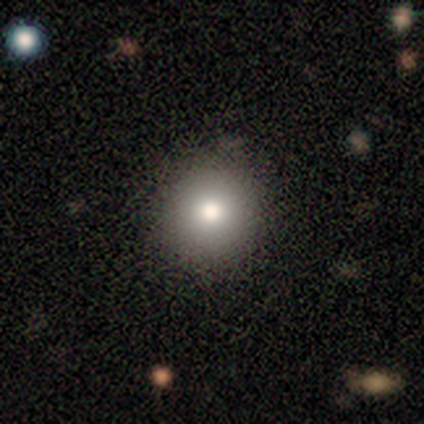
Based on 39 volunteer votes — Q: Smooth or featured?
A: smooth (85%); runner-up: featured or disk (10%)
Q: How rounded?
A: round (100%)
Q: Merging?
A: none (73%); runner-up: minor disturbance (3%)